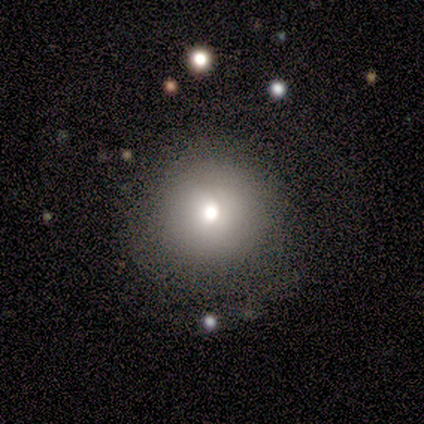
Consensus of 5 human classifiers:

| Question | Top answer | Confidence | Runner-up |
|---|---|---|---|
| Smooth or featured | smooth | 80% | featured or disk (20%) |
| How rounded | round | 100% | — |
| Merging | none | 80% | merger (20%) |